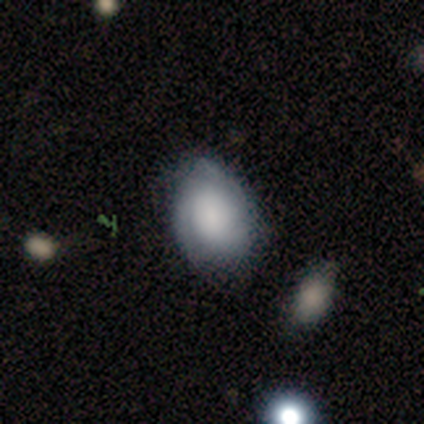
Smooth or featured: smooth — 53% (featured or disk — 34%)
How rounded: in between — 60% (round — 40%)
Merging: none — 67% (minor disturbance — 12%)